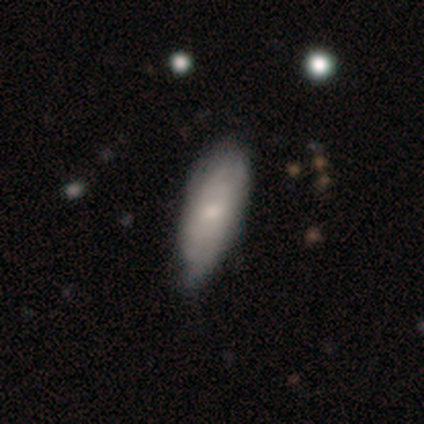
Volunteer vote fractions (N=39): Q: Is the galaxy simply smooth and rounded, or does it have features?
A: smooth — 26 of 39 (67%).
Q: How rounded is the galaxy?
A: in between — 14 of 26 (54%).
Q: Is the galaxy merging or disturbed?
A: none — 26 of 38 (68%).